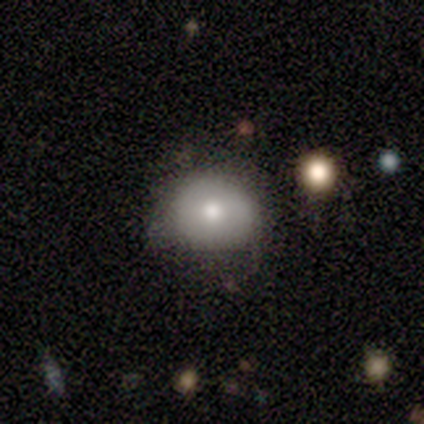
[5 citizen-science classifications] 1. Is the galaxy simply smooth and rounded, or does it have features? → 100% smooth, 0% featured or disk, 0% star or artifact.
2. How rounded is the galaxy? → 60% in between, 40% round, 0% cigar-shaped.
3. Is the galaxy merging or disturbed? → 100% none, 0% minor disturbance, 0% major disturbance, 0% merger.